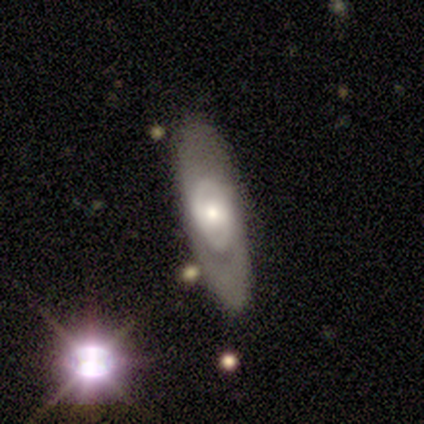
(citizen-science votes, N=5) Q: Smooth or featured?
A: featured or disk (80%); runner-up: smooth (20%)
Q: Edge-on disk?
A: no (75%); runner-up: yes (25%)
Q: Bar?
A: no (67%); runner-up: weak (33%)
Q: Spiral arms?
A: yes (67%); runner-up: no (33%)
Q: Spiral winding?
A: tight (50%); tied with: medium (50%)
Q: Spiral arm count?
A: can't tell (100%)
Q: Bulge size?
A: small (67%); runner-up: large (33%)
Q: Merging?
A: none (60%); runner-up: minor disturbance (20%)